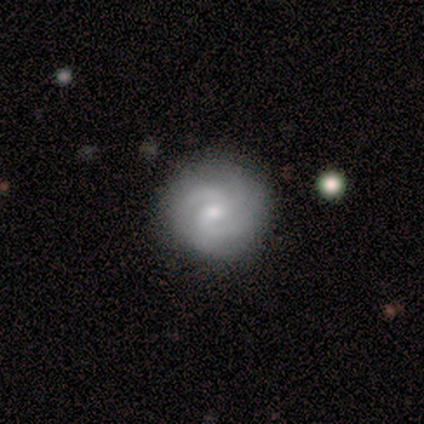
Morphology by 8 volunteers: A featured or disk galaxy (75%) with a weak bar (50%, tied with no), 2 (50%) tight (50%) spiral arms (100%) and a moderate central bulge (50%).

Vote fractions:
- Smooth or featured? featured or disk: 75% / smooth: 25% / star or artifact: 0%
- Edge-on disk? no: 100% / yes: 0%
- Bar? weak: 50% (tied) / no: 50% (tied) / strong: 0%
- Spiral arms? yes: 100% / no: 0%
- Spiral winding? tight: 50% / medium: 33% / loose: 17%
- Spiral arm count? 2: 50% / 3: 33% / can't tell: 17% / 1: 0% / 4: 0% / more than 4: 0%
- Bulge size? moderate: 50% / small: 33% / dominant: 17% / large: 0% / none: 0%
- Merging? none: 62% / minor disturbance: 25% / major disturbance: 12% / merger: 0%